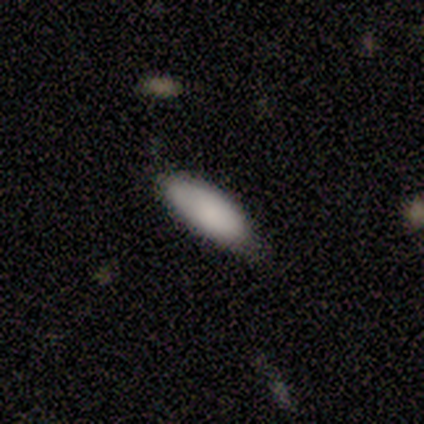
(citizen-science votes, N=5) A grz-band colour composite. It shows a smooth galaxy with no disk features (80%) that is in between round and cigar-shaped (50%, tied with cigar-shaped). Merging: none (80%).